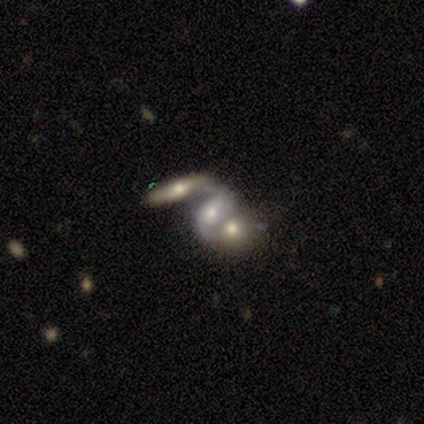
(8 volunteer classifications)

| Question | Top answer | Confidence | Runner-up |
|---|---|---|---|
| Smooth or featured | featured or disk | 75% | smooth (25%) |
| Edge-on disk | no | 83% | yes (17%) |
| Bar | no | 60% | strong (20%) |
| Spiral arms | yes | 100% | — |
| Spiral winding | medium | 80% | loose (20%) |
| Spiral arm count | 2 | 100% | — |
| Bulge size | moderate | 80% | small (20%) |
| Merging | merger | 88% | none (12%) |